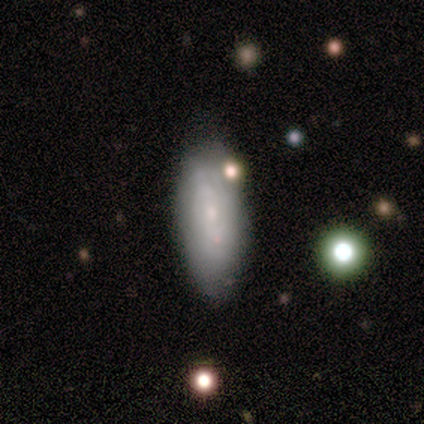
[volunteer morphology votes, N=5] Smooth or featured? smooth (40%, tied with featured or disk)
How rounded? in between (100%)
Merging? none (50%, tied with minor disturbance)